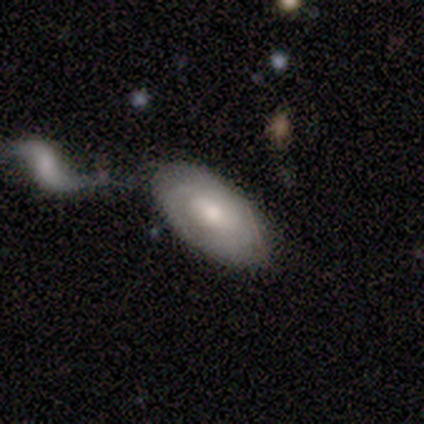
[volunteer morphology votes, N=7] Smooth or featured? 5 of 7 (71%) said smooth. How rounded? 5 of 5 (100%) said in between. Merging? 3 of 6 (50%) said minor disturbance.